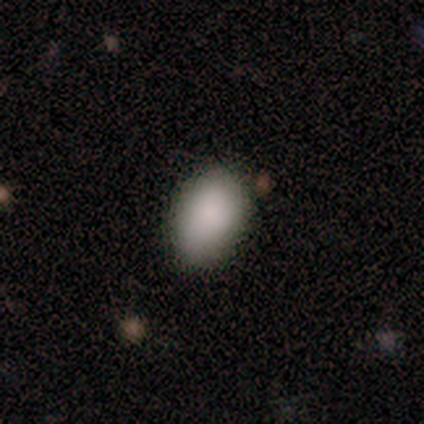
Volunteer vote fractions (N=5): Overall: smooth (100%). How rounded: in between (100%). Merging: none (80%).